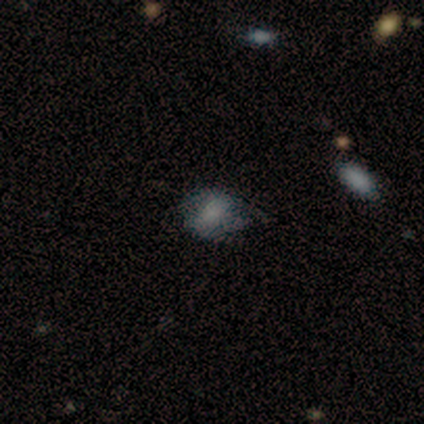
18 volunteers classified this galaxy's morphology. Q: Smooth or featured?
A: smooth (72%); runner-up: featured or disk (22%)
Q: How rounded?
A: round (62%); runner-up: in between (38%)
Q: Merging?
A: none (65%); runner-up: minor disturbance (24%)